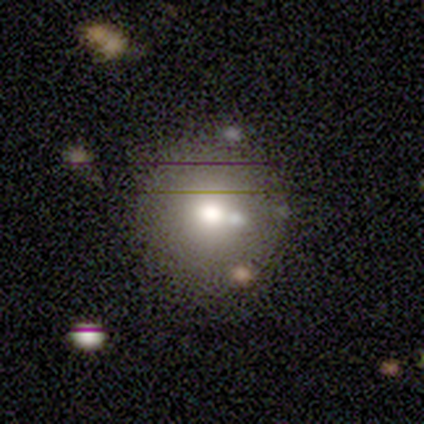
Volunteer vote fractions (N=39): Overall: smooth (54%; featured or disk 33%). How rounded: round (81%). Merging: none (71%).